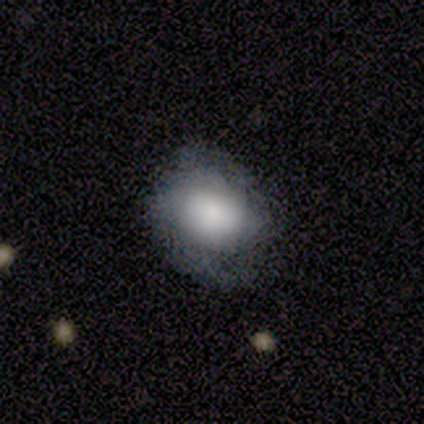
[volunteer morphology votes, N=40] This appears to be a smooth galaxy with no disk features (62%) that is round (56%). Merging: none (64%).